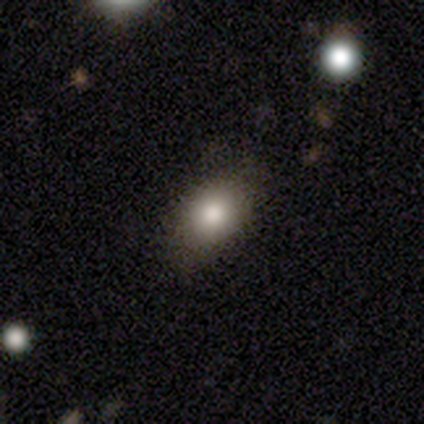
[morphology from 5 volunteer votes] Smooth or featured? 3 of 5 (60%) said smooth. How rounded? 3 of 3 (100%) said in between. Merging? 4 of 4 (100%) said none.